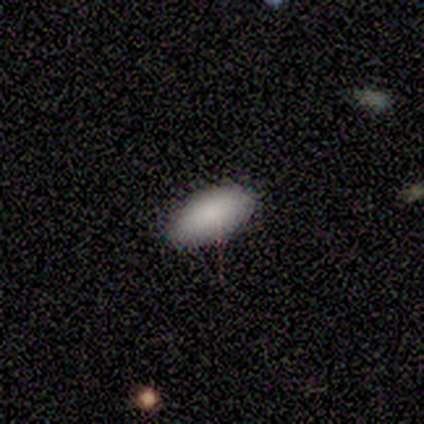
smooth 100%, featured or disk 0%, star or artifact 0%. Down the decision tree: how rounded — in between (100%); merging — none (100%).